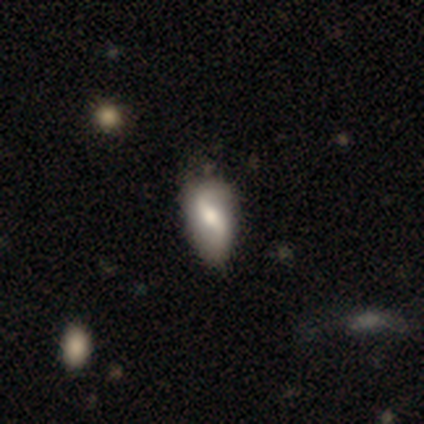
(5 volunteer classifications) featured or disk 60%, smooth 40%, star or artifact 0%. Down the decision tree: edge-on disk — no (100%); bar — weak (67%); spiral arms — yes (67%); spiral arm count — 2 (100%); spiral winding — loose (100%); bulge size — large (67%); merging — minor disturbance (80%).